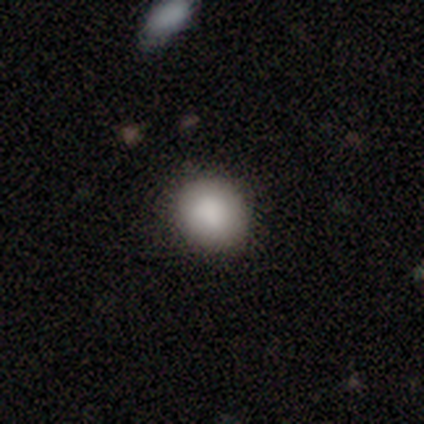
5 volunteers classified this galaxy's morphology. Volunteers were most divided on "merging": none: 80%, minor disturbance: 20%, major disturbance: 0%, merger: 0%. More confident: smooth or featured — smooth (100%); how rounded — round (100%).